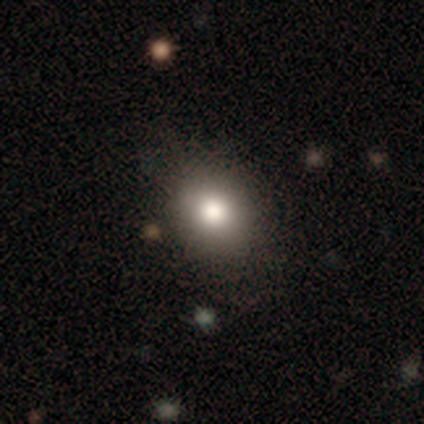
Overall: smooth (79%). How rounded: round (55%; in between 45%). Merging: none (75%).